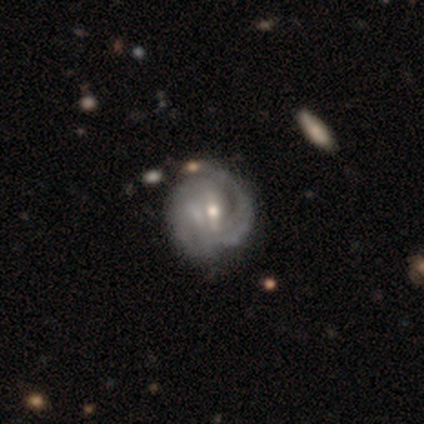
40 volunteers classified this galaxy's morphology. featured or disk 92%, smooth 5%, star or artifact 2%. Down the decision tree: edge-on disk — no (100%); bar — weak (46%); spiral arms — yes (95%); spiral arm count — can't tell (49%); spiral winding — tight (66%); bulge size — small (51%); merging — none (44%).